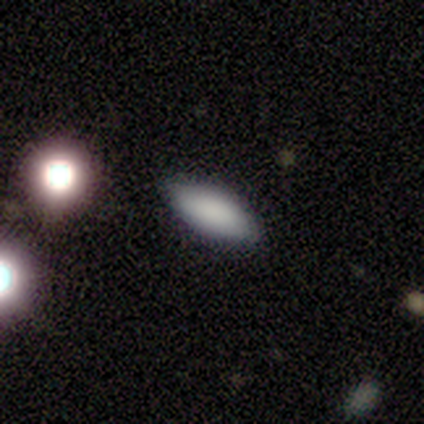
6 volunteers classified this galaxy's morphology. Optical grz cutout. It shows a smooth galaxy with no disk features (100%) that is in between round and cigar-shaped (83%). Merging: none (83%).